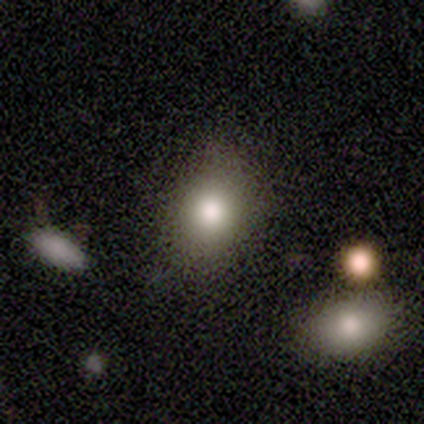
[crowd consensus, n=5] Q: Smooth or featured?
A: smooth (80%); runner-up: star or artifact (20%)
Q: How rounded?
A: in between (100%)
Q: Merging?
A: none (100%)